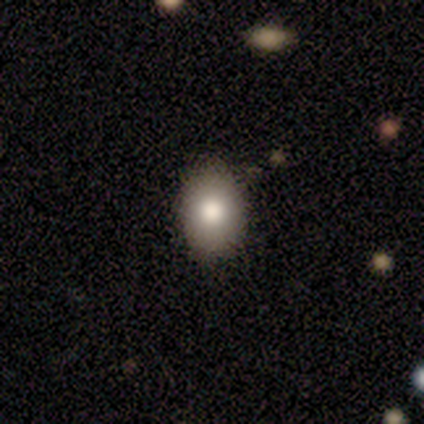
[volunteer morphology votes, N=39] smooth_or_featured: smooth (p=0.77) [alt: featured or disk p=0.21]
how_rounded: in between (p=0.83) [alt: round p=0.17]
merging: none (p=0.79) [alt: minor disturbance p=0.05]